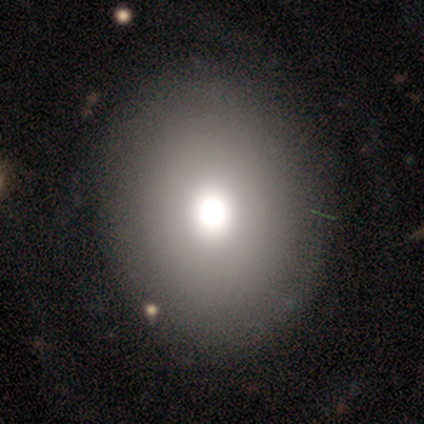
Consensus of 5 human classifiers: Overall: featured or disk (60%; smooth 40%). Edge-on disk: no (100%). Bar: no (100%). Spiral arms: no (67%; yes 33%). Bulge size: dominant (33%, tied with large and moderate). Merging: none (100%).